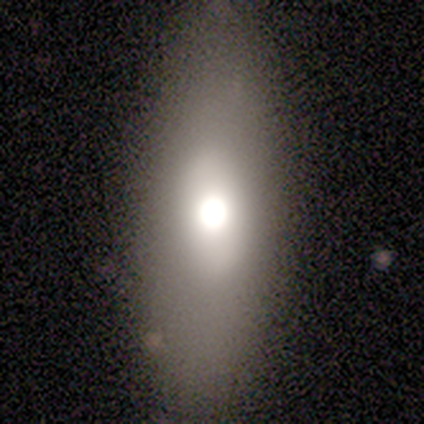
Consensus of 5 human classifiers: smooth_or_featured: featured or disk (p=0.80) [alt: smooth p=0.20]
disk_edge_on: no (p=1.00)
bar: no (p=1.00)
has_spiral_arms: no (p=1.00)
bulge_size: moderate (p=0.75) [alt: large p=0.25]
merging: none (p=0.60) [alt: minor disturbance p=0.20]